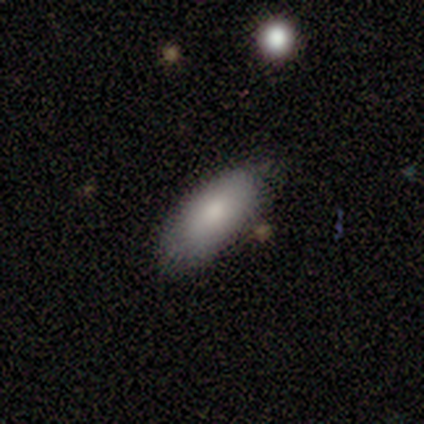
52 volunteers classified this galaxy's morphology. This appears to be a smooth galaxy with no disk features (92%) that is in between round and cigar-shaped (90%). Merging: none (73%).